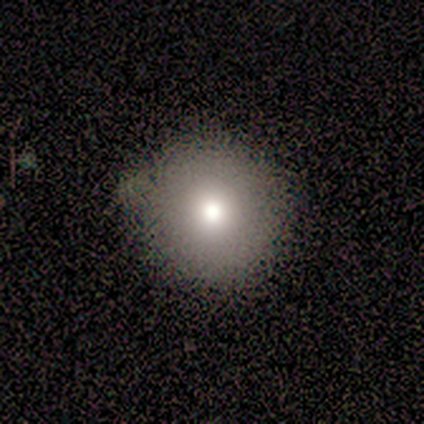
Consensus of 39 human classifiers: Morphology: type=smooth (77%); roundness=round (97%); merging=none (76%).